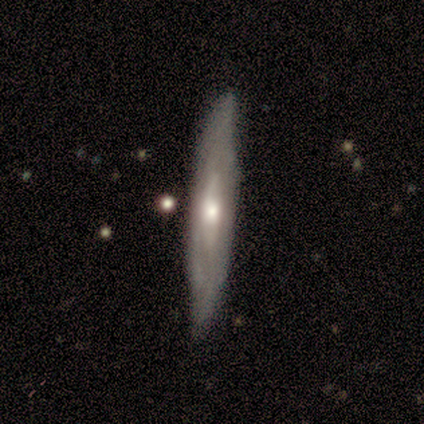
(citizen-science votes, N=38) Smooth or featured? 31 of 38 (82%) said featured or disk. Edge-on disk? 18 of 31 (58%) said yes. Edge-on bulge? 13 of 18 (72%) said rounded. Merging? 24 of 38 (63%) said none.